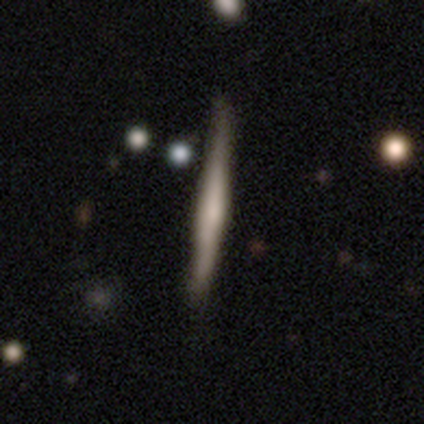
Smooth or featured: featured or disk — 60% (smooth — 40%)
Edge-on disk: yes — 100%
Edge-on bulge: boxy — 33% (tied with none — 33%; rounded — 33%)
Merging: none — 100%